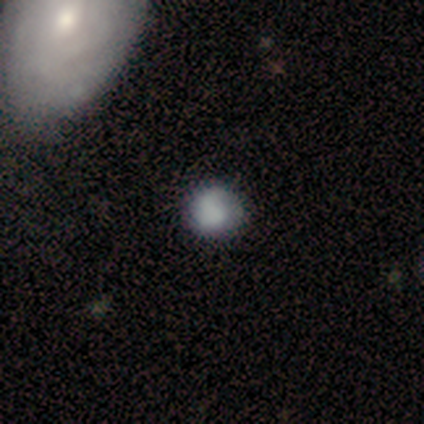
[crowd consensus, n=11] Smooth or featured? smooth (82%)
How rounded? round (78%)
Merging? none (70%)